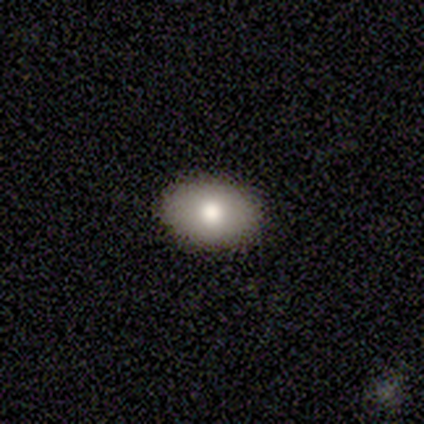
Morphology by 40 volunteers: type=smooth (72%); roundness=in between (83%); merging=none (86%).